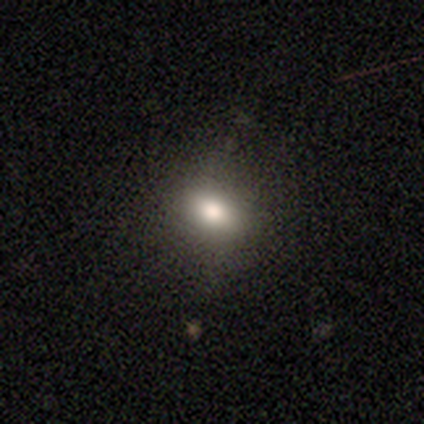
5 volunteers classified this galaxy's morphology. Smooth or featured: smooth — 100%
How rounded: in between — 80% (round — 20%)
Merging: none — 60% (minor disturbance — 40%)